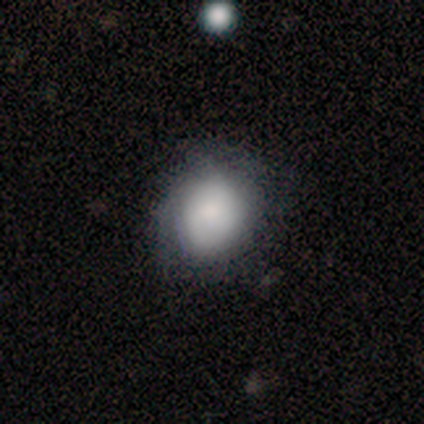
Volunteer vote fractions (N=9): Smooth or featured? smooth (78%)
How rounded? round (86%)
Merging? none (88%)